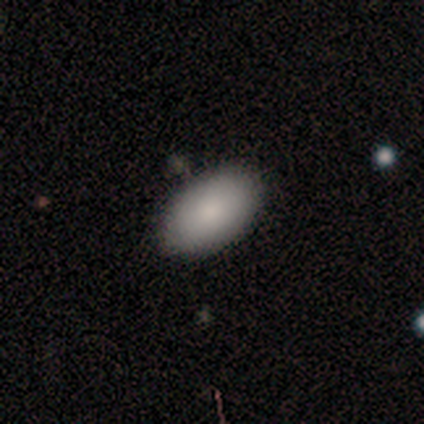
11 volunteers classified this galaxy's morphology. Smooth or featured: smooth — 100%
How rounded: in between — 91% (round — 9%)
Merging: none — 100%